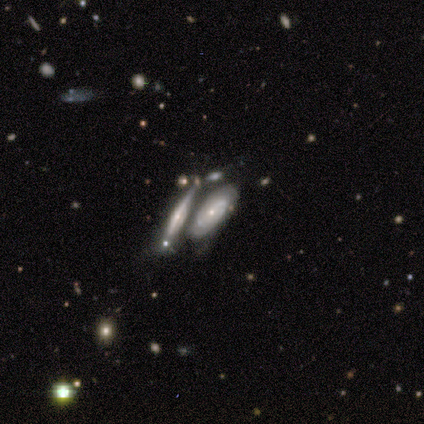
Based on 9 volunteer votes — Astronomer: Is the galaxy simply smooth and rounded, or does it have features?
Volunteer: featured or disk — 67%.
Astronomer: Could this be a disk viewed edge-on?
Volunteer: no — 67%.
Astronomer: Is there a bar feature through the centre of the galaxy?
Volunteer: no — 100%.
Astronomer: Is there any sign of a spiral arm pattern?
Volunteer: yes — 75%.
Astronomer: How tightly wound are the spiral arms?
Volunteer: tight — 100%.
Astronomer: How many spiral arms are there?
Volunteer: can't tell — 100%.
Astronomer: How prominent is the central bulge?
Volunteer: small — 100%.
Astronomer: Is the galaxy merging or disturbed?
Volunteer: merger — 56% (runner-up: none, 33%).